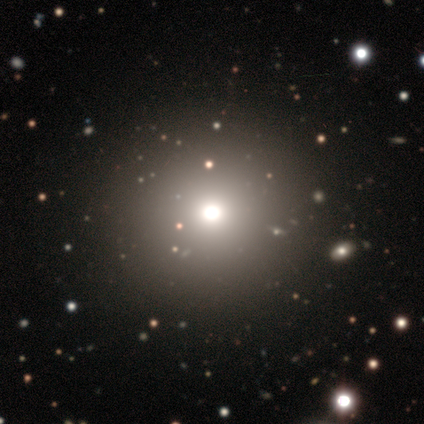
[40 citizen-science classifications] This is possibly a smooth galaxy (45%, tied with star or artifact). How rounded: clearly round (94%). Merging: likely none (77%).